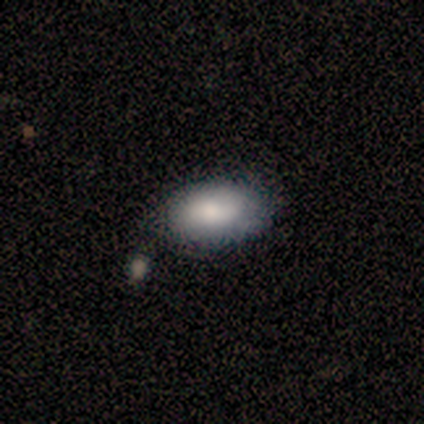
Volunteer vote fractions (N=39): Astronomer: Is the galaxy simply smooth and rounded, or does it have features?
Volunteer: smooth — 82%.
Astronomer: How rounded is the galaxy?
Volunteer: in between — 100%.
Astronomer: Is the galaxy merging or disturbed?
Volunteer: none — 58%.